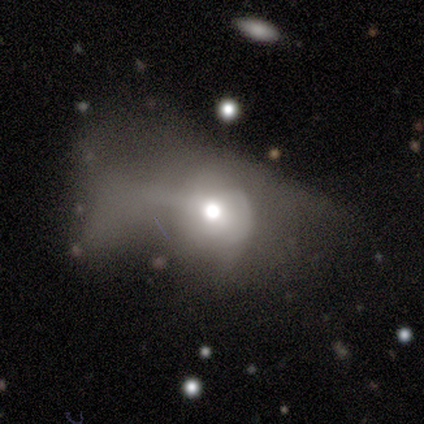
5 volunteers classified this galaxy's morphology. A smooth galaxy with no disk features (40%, tied with featured or disk) that is round (50%, tied with in between). Merging: major disturbance (75%).